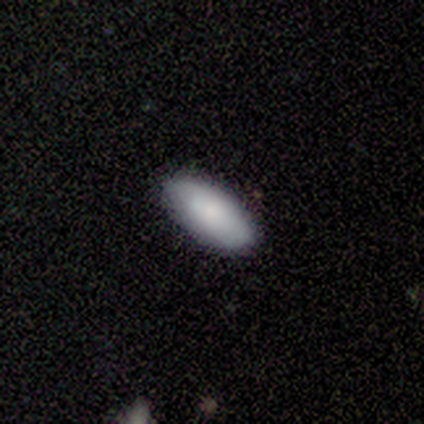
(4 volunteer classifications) Smooth or featured? 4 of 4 (100%) said smooth. How rounded? 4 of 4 (100%) said in between. Merging? 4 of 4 (100%) said none.